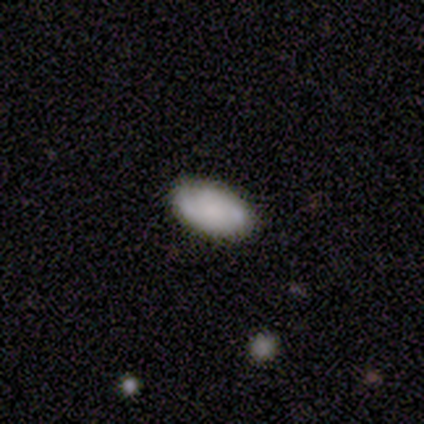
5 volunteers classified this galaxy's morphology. type=smooth (80%); roundness=in between (100%); merging=none (100%).